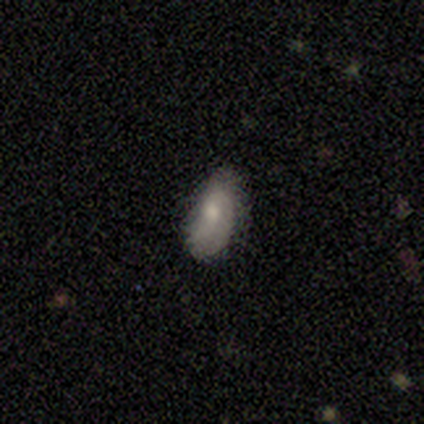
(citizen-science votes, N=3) Volunteers were most divided on "smooth or featured" (3-way tie): smooth: 33%, featured or disk: 33%, star or artifact: 33%; "merging" (2-way tie): none: 50%, minor disturbance: 50%, major disturbance: 0%, merger: 0%. More confident: how rounded — in between (100%).